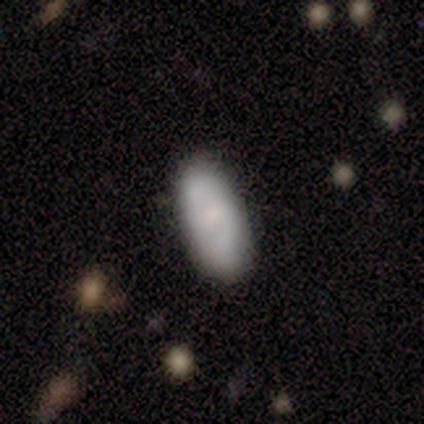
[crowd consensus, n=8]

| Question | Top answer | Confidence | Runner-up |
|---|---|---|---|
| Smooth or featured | smooth | 75% | featured or disk (25%) |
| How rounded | in between | 83% | cigar-shaped (17%) |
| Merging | none | 100% | — |